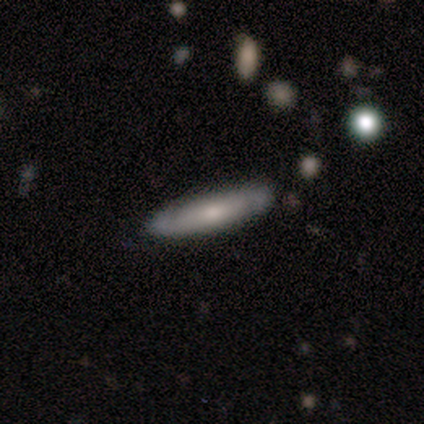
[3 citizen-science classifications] Volunteers were most divided on "how rounded": cigar-shaped: 67%, in between: 33%, round: 0%. More confident: smooth or featured — smooth (100%); merging — none (67%).